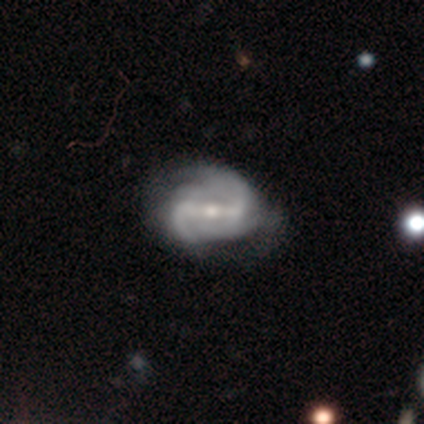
Overall: featured or disk (92%). Edge-on disk: no (89%). Bar: strong (76%). Spiral arms: yes (97%). Spiral arm count: 2 (62%). Spiral winding: medium (38%, tied with loose). Bulge size: moderate (48%, tied with small). Merging: minor disturbance (30%; none 28%).